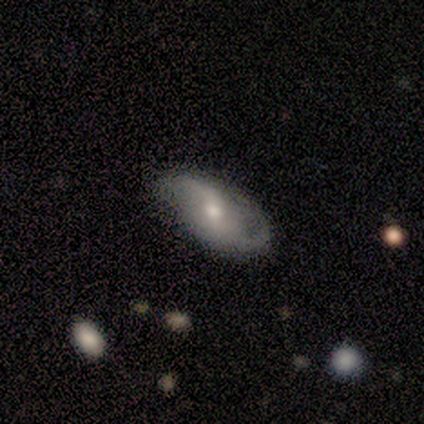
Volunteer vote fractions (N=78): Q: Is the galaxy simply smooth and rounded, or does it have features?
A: featured or disk — 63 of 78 (81%).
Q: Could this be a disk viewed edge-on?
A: no — 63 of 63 (100%).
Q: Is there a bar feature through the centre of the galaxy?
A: weak — 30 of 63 (48%).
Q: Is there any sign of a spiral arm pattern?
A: yes — 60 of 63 (95%).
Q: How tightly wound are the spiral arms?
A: loose — 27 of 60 (45%).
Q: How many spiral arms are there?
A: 2 — 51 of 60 (85%).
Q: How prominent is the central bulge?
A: moderate — 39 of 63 (62%).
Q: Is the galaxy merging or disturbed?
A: none — 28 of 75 (37%).